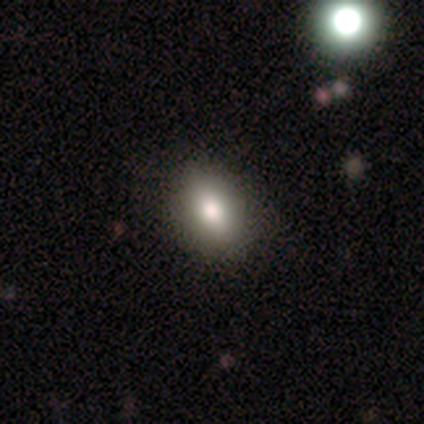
Smooth or featured? 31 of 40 (78%) said smooth. How rounded? 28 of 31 (90%) said in between. Merging? 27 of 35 (77%) said none.